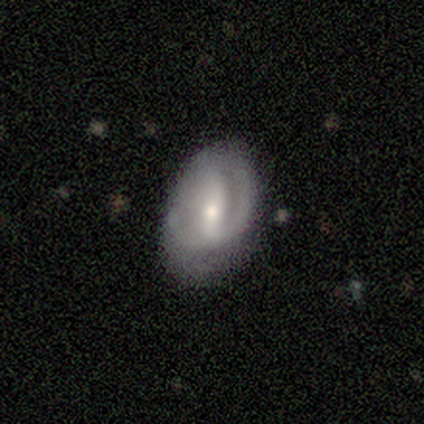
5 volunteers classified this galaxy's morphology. This is clearly a featured or disk galaxy (80%). It is clearly not viewed edge-on (100%). Bar: possibly strong (50%). Spiral arm pattern: likely yes (75%). Spiral arm count: likely 2 (67%). Spiral winding: likely medium (67%). Central bulge: possibly moderate (50%, tied with small). Merging: likely none (60%).